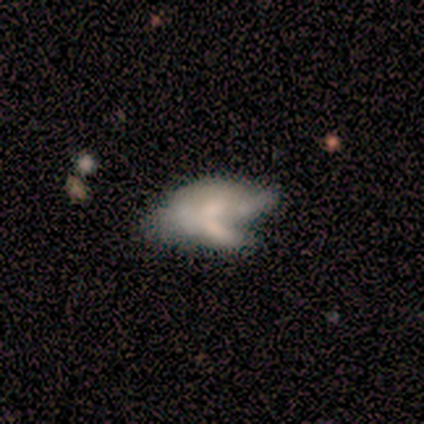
featured or disk 75%, smooth 25%, star or artifact 0%. Down the decision tree: edge-on disk — no (100%); bar — no (67%); spiral arms — no (67%); bulge size — small (67%); merging — merger (75%).